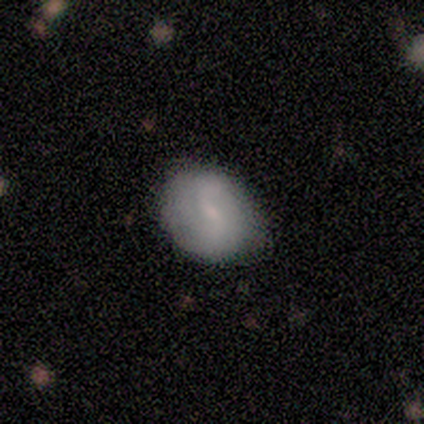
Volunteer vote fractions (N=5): Volunteers were most divided on "spiral winding" (2-way tie): tight: 50%, loose: 50%, medium: 0%. More confident: edge-on disk — no (100%); bar — weak (100%); spiral arm count — 2 (100%); bulge size — small (100%); merging — none (75%); spiral arms — yes (67%); smooth or featured — featured or disk (60%).